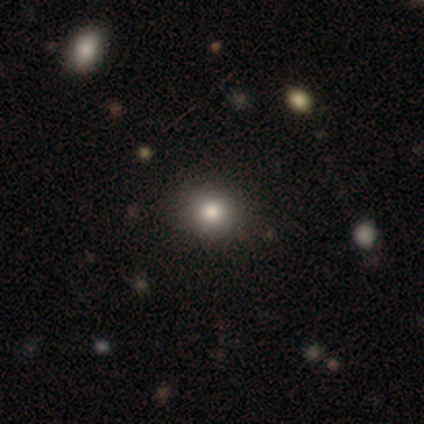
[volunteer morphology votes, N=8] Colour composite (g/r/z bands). It shows a smooth galaxy with no disk features (88%) that is round (100%). Merging: none (86%).